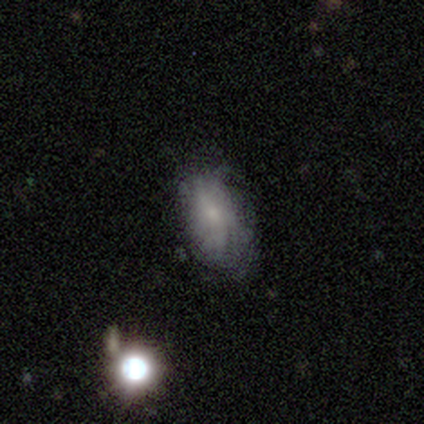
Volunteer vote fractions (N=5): smooth-or-featured: featured or disk: 80% | smooth: 20% | star or artifact: 0%
  disk-edge-on: no: 100% | yes: 0%
    bar: weak: 75% | no: 25% | strong: 0%
    has-spiral-arms: yes: 100% | no: 0%
      spiral-winding: medium: 75% | tight: 25% | loose: 0%
      spiral-arm-count: can't tell: 100% | 1: 0% | 2: 0% | 3: 0% | 4: 0% | more than 4: 0%
    bulge-size: small: 100% | dominant: 0% | large: 0% | moderate: 0% | none: 0%
  merging: none: 60% | minor disturbance: 40% | major disturbance: 0% | merger: 0%